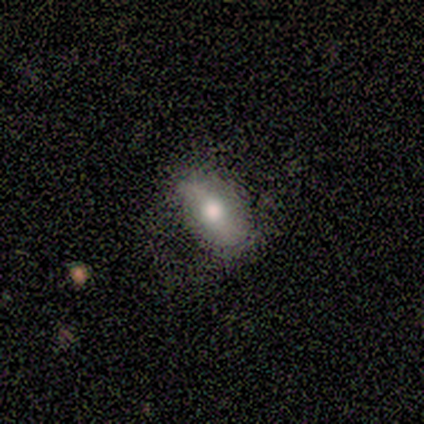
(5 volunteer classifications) smooth-or-featured: smooth: 100% | featured or disk: 0% | star or artifact: 0%
  how-rounded: in between: 100% | round: 0% | cigar-shaped: 0%
  merging: none: 60% | minor disturbance: 40% | major disturbance: 0% | merger: 0%